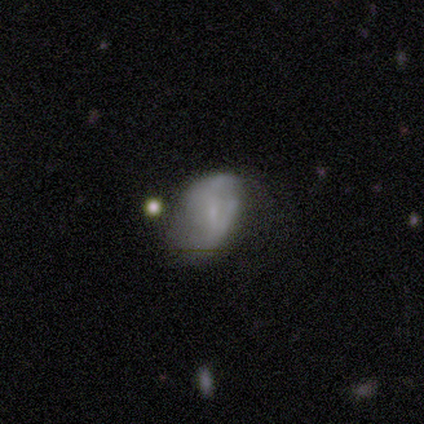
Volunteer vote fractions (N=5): featured or disk 80%, smooth 20%, star or artifact 0%. Down the decision tree: edge-on disk — no (75%); bar — no (67%); spiral arms — yes (67%); spiral arm count — can't tell (100%); spiral winding — medium (50%, tied with loose); bulge size — none (67%); merging — major disturbance (60%).